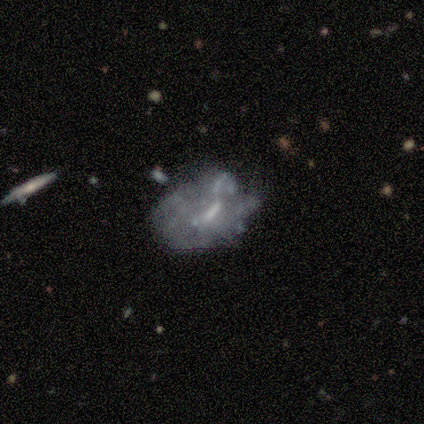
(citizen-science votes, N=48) Volunteers were most divided on "bulge size": moderate: 41%, small: 32%, none: 26%, dominant: 0%, large: 0%. Remaining: edge-on disk — no (100%); spiral arms — no (74%); smooth or featured — featured or disk (71%); bar — weak (50%); merging — major disturbance (44%).